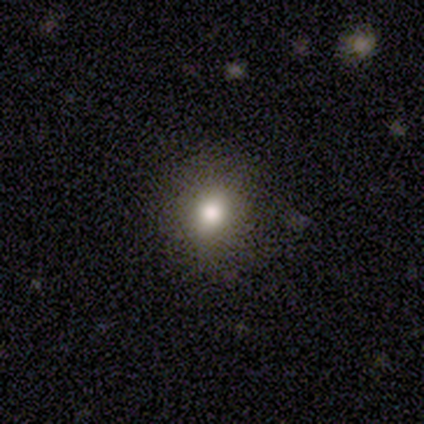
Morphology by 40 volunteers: smooth-or-featured: smooth: 82% | star or artifact: 10% | featured or disk: 8%
  how-rounded: round: 85% | in between: 15% | cigar-shaped: 0%
  merging: none: 89% | minor disturbance: 6% | major disturbance: 3% | merger: 3%